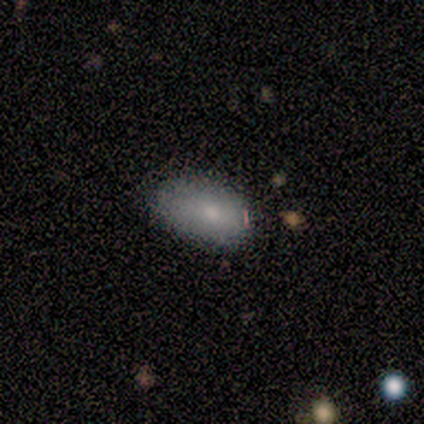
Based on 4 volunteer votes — Smooth or featured? smooth (100%)
How rounded? in between (100%)
Merging? none (50%, tied with minor disturbance)